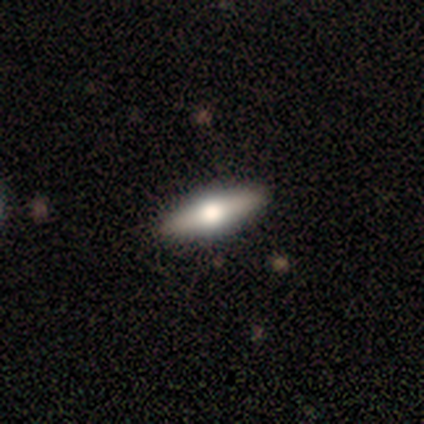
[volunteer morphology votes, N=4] Smooth or featured? smooth (75%)
How rounded? in between (67%)
Merging? none (100%)